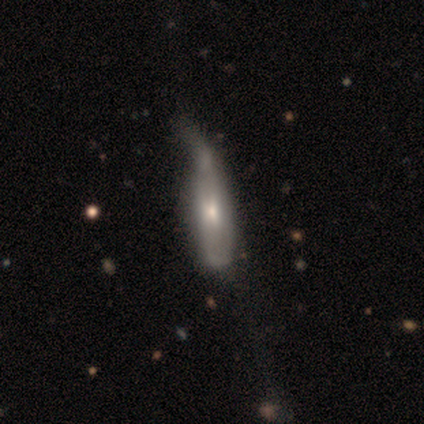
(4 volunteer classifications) Overall: smooth (50%, tied with featured or disk). How rounded: cigar-shaped (100%). Merging: minor disturbance (100%).